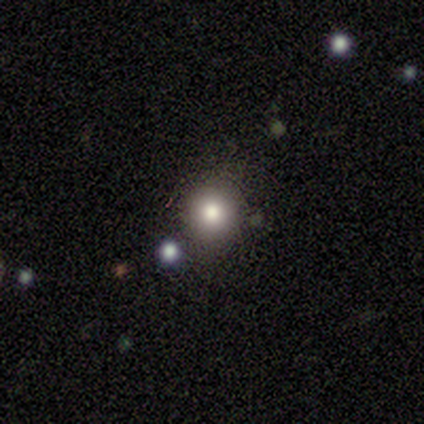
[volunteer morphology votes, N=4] Smooth or featured? smooth (100%)
How rounded? round (75%)
Merging? none (100%)